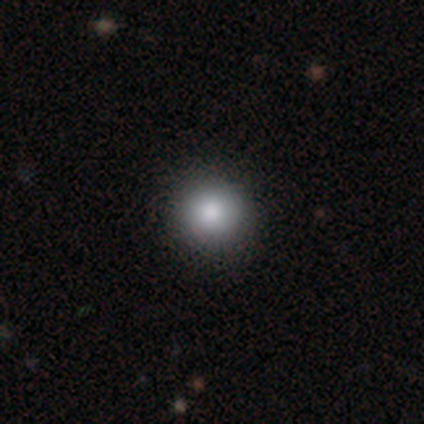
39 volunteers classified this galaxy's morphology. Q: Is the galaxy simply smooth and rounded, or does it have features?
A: smooth — 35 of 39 (90%).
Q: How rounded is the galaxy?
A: round — 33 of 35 (94%).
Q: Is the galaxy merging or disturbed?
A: none — 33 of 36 (92%).